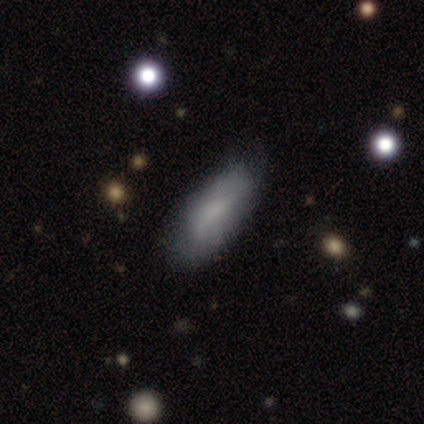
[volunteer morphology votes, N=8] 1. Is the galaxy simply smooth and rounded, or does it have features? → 88% smooth, 12% star or artifact, 0% featured or disk.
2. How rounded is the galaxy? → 71% in between, 29% cigar-shaped, 0% round.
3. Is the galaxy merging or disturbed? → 57% none, 43% minor disturbance, 0% major disturbance, 0% merger.